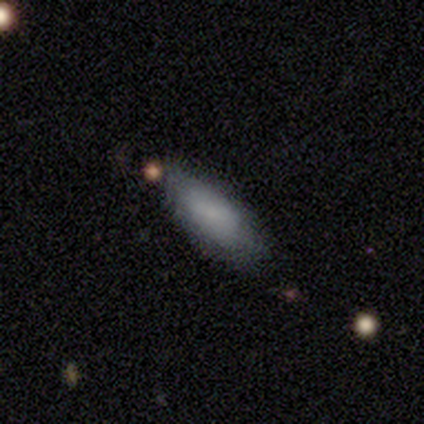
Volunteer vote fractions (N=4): Q: Smooth or featured?
A: smooth (100%)
Q: How rounded?
A: in between (75%); runner-up: cigar-shaped (25%)
Q: Merging?
A: none (75%); runner-up: major disturbance (25%)